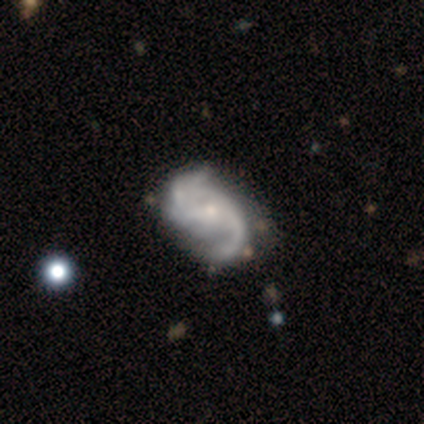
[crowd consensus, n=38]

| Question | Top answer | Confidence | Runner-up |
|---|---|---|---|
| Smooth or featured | featured or disk | 95% | smooth (5%) |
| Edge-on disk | no | 100% | — |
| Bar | no | 72% | weak (17%) |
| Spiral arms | yes | 94% | no (6%) |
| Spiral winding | medium | 53% | loose (41%) |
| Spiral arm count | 2 | 85% | can't tell (9%) |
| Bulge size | small | 69% | moderate (22%) |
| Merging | none | 45% | major disturbance (13%) |